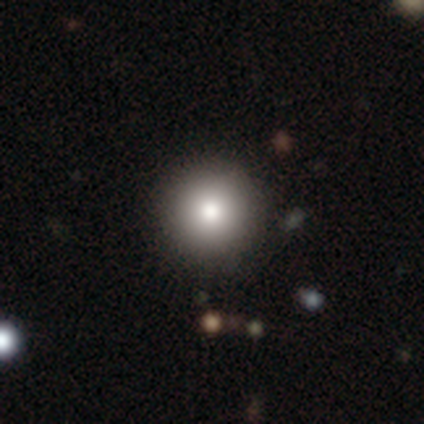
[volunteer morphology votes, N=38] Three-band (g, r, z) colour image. It shows a smooth galaxy with no disk features (68%) that is round (100%). Merging: none (97%).